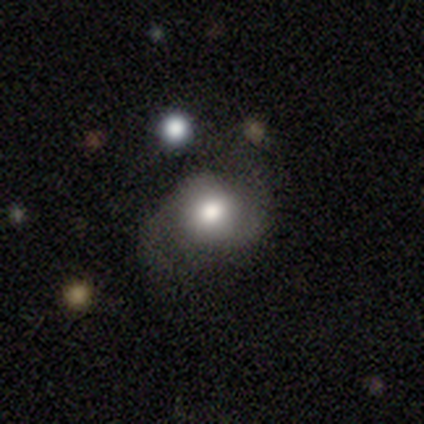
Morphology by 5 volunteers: smooth-or-featured: featured or disk: 60% | smooth: 20% | star or artifact: 20%
  disk-edge-on: no: 100% | yes: 0%
    bar: no: 67% | weak: 33% | strong: 0%
    has-spiral-arms: yes: 67% | no: 33%
      spiral-winding: loose: 100% | tight: 0% | medium: 0%
      spiral-arm-count: 2: 100% | 1: 0% | 3: 0% | 4: 0% | more than 4: 0% | can't tell: 0%
    bulge-size: large: 67% | moderate: 33% | dominant: 0% | small: 0% | none: 0%
  merging: none: 75% | minor disturbance: 25% | major disturbance: 0% | merger: 0%